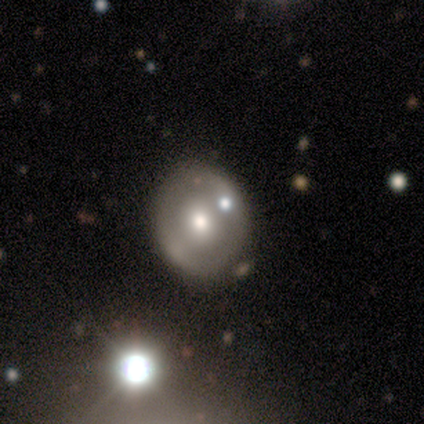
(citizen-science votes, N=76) This is possibly a featured or disk galaxy (55%). It is clearly not viewed edge-on (98%). Bar: likely no (78%). Spiral arm pattern: clearly no (88%). Central bulge: possibly moderate (56%). Merging: likely none (76%).